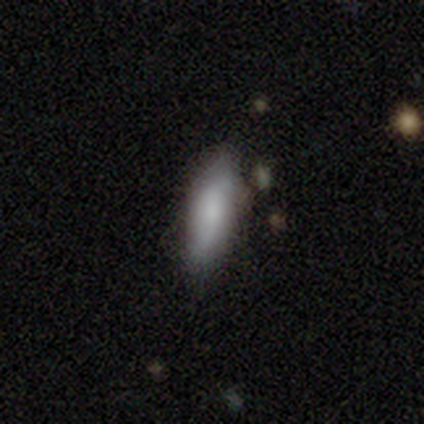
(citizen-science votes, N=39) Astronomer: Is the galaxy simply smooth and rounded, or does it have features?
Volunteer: smooth — 69%.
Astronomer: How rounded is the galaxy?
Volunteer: in between — 56% (runner-up: cigar-shaped, 44%).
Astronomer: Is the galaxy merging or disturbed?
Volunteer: none — 71%.